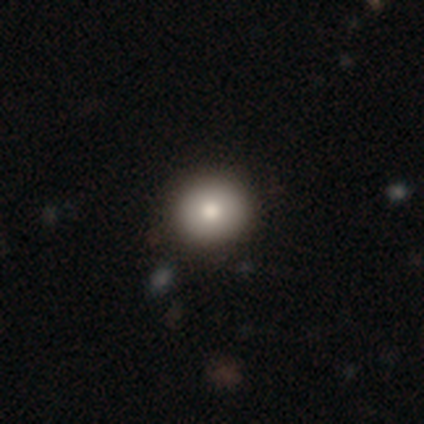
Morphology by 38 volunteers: Smooth or featured: smooth — 84% (featured or disk — 8%)
How rounded: round — 91% (in between — 9%)
Merging: none — 86% (minor disturbance — 9%)